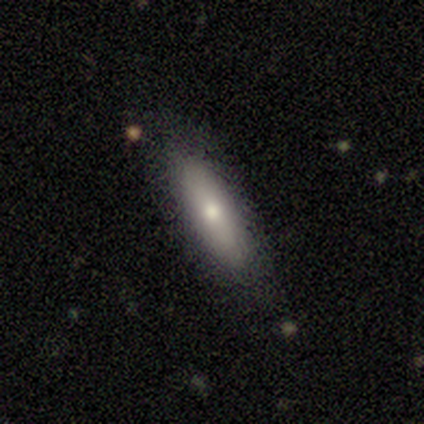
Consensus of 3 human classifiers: A smooth galaxy with no disk features (100%) that is cigar-shaped (67%).

Vote fractions:
- Smooth or featured? smooth: 100% / featured or disk: 0% / star or artifact: 0%
- How rounded? cigar-shaped: 67% / in between: 33% / round: 0%
- Merging? none: 67% / major disturbance: 33% / minor disturbance: 0% / merger: 0%